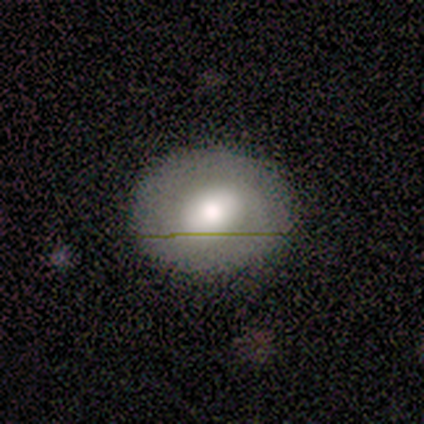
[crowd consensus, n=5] Smooth or featured: smooth — 60% (featured or disk — 40%)
How rounded: in between — 67% (round — 33%)
Merging: none — 80% (minor disturbance — 20%)